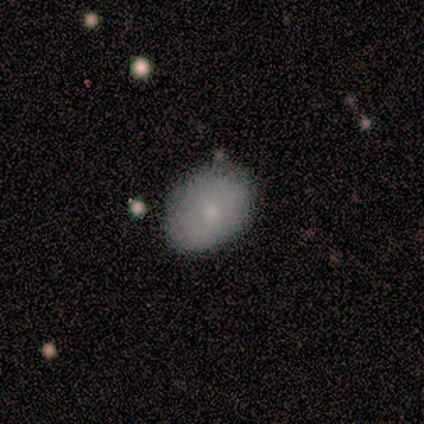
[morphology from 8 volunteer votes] This is likely a smooth galaxy (75%). How rounded: clearly in between (100%). Merging: clearly none (100%).